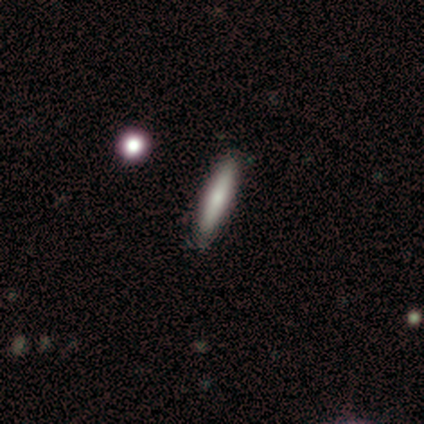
Volunteers were most divided on "smooth or featured": smooth: 60%, featured or disk: 40%, star or artifact: 0%. More confident: merging — none (80%); how rounded — cigar-shaped (67%).